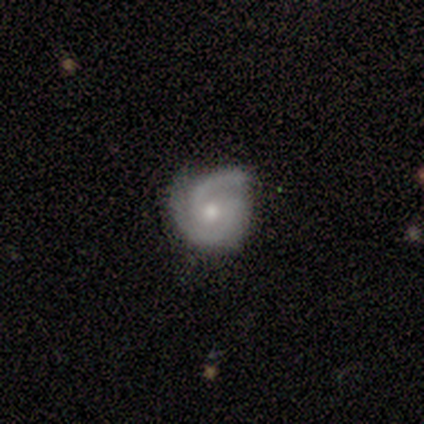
Smooth or featured? 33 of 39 (85%) said featured or disk. Edge-on disk? 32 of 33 (97%) said no. Bar? 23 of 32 (72%) said no. Spiral arms? 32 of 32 (100%) said yes. Spiral winding? 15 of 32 (47%, tied with medium) said tight. Spiral arm count? 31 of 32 (97%) said 2. Bulge size? 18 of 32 (56%) said moderate. Merging? 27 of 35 (77%) said none.